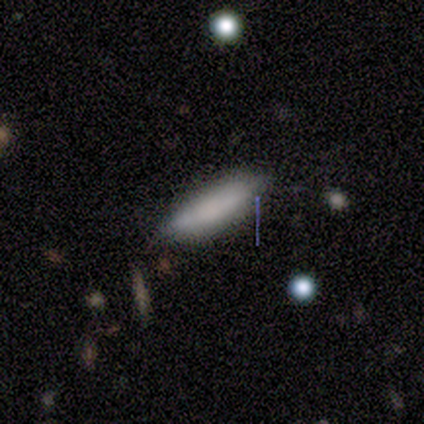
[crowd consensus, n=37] Volunteers were most divided on "how rounded": in between: 69%, cigar-shaped: 31%, round: 0%. More confident: smooth or featured — smooth (78%); merging — none (73%).